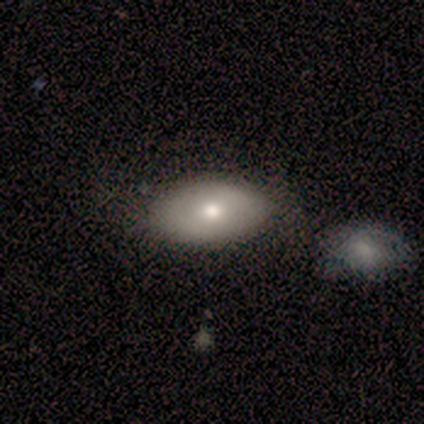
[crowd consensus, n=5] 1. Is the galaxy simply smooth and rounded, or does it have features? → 100% smooth, 0% featured or disk, 0% star or artifact.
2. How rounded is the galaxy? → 100% in between, 0% round, 0% cigar-shaped.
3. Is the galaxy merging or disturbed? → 100% none, 0% minor disturbance, 0% major disturbance, 0% merger.